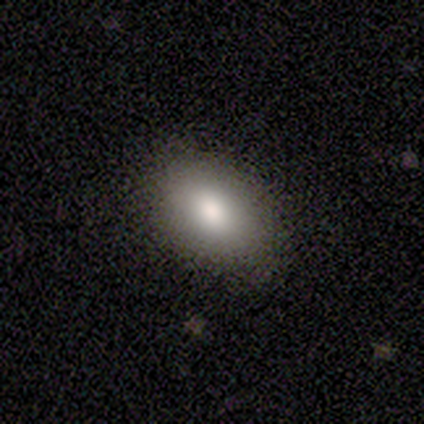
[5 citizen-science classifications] smooth_or_featured: smooth (p=1.00)
how_rounded: in between (p=1.00)
merging: none (p=1.00)